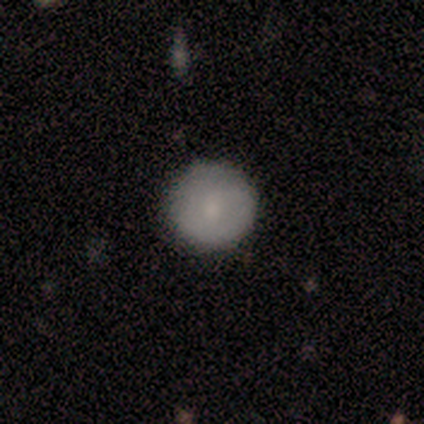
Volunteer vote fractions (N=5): This is likely a smooth galaxy (60%). How rounded: clearly round (100%). Merging: clearly none (80%).